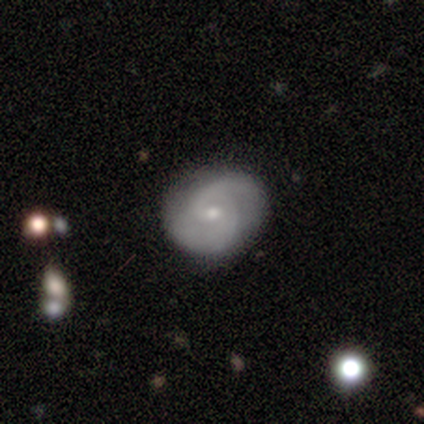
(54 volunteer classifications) Smooth or featured? 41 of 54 (76%) said featured or disk. Edge-on disk? 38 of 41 (93%) said no. Bar? 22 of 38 (58%) said no. Spiral arms? 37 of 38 (97%) said yes. Spiral winding? 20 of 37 (54%) said medium. Spiral arm count? 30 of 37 (81%) said 2. Bulge size? 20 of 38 (53%) said small. Merging? 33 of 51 (65%) said none.